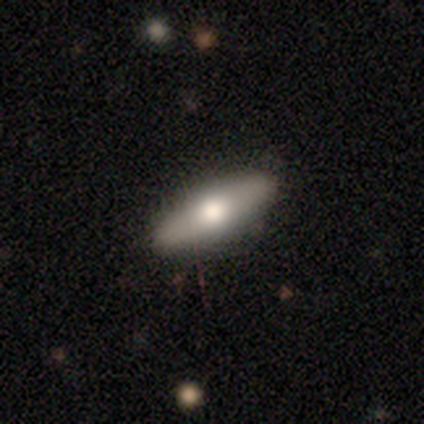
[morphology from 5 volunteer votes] Q: Smooth or featured?
A: smooth (100%)
Q: How rounded?
A: cigar-shaped (60%); runner-up: in between (40%)
Q: Merging?
A: none (100%)